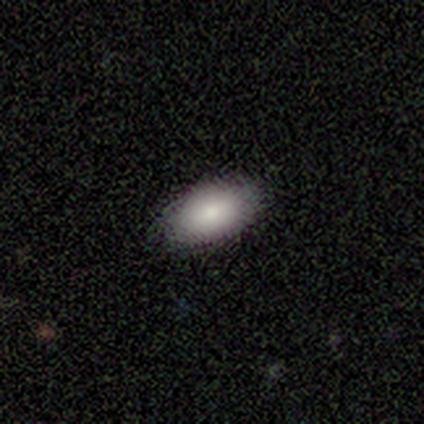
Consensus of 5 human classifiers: Q: Smooth or featured?
A: featured or disk (60%); runner-up: smooth (40%)
Q: Edge-on disk?
A: no (100%)
Q: Bar?
A: no (67%); runner-up: strong (33%)
Q: Spiral arms?
A: no (100%)
Q: Bulge size?
A: moderate (67%); runner-up: small (33%)
Q: Merging?
A: none (80%); runner-up: minor disturbance (20%)